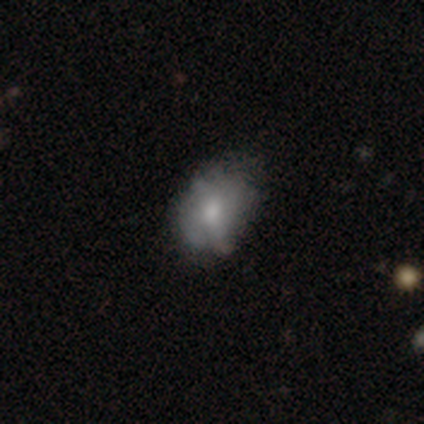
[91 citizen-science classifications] This appears to be a smooth galaxy with no disk features (57%) that is in between round and cigar-shaped (67%). Merging: none (49%).